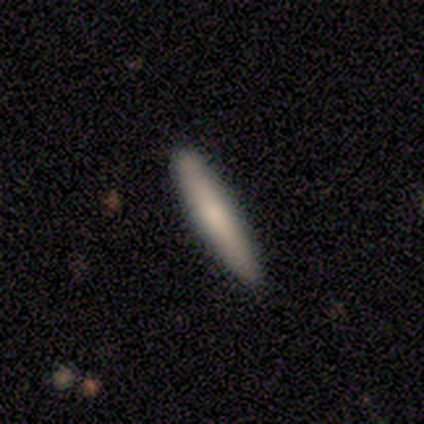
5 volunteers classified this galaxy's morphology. Overall: smooth (80%). How rounded: cigar-shaped (100%). Merging: none (100%).